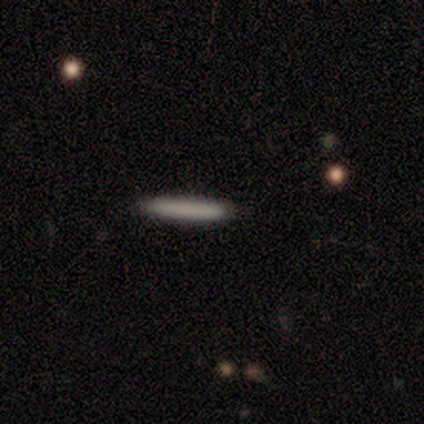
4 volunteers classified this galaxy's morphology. This appears to be a smooth galaxy with no disk features (100%) that is cigar-shaped (100%). Merging: none (100%).